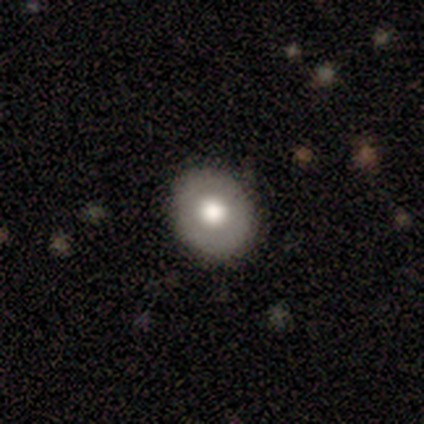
Q: Smooth or featured?
A: smooth (75%); runner-up: featured or disk (12%)
Q: How rounded?
A: round (100%)
Q: Merging?
A: none (71%); runner-up: minor disturbance (29%)